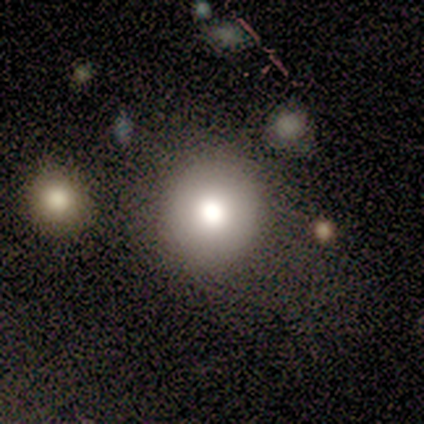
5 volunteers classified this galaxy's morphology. A smooth galaxy with no disk features (80%) that is round (100%).

Vote fractions:
- Smooth or featured? smooth: 80% / star or artifact: 20% / featured or disk: 0%
- How rounded? round: 100% / in between: 0% / cigar-shaped: 0%
- Merging? none: 100% / minor disturbance: 0% / major disturbance: 0% / merger: 0%